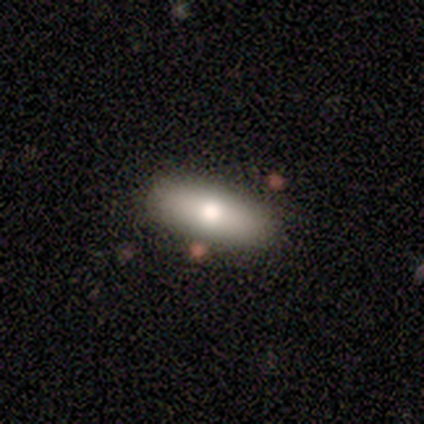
Smooth or featured?
  - smooth: 100% *
  - featured or disk: 0%
  - star or artifact: 0%
How rounded?
  - in between: 80% *
  - cigar-shaped: 20%
  - round: 0%
Merging?
  - none: 60% *
  - minor disturbance: 20%
  - major disturbance: 20%
  - merger: 0%